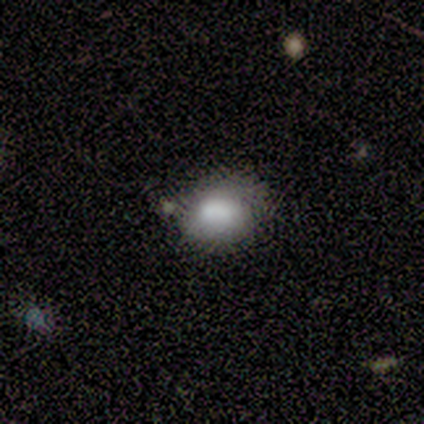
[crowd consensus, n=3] Volunteers were most divided on "smooth or featured" (3-way tie): smooth: 33%, featured or disk: 33%, star or artifact: 33%. More confident: how rounded — in between (100%); merging — none (100%).